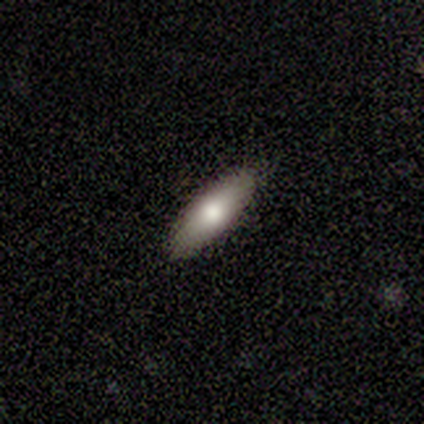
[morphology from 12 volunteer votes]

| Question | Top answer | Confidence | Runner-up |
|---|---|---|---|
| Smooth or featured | smooth | 58% | featured or disk (33%) |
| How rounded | cigar-shaped | 57% | in between (43%) |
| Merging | none | 100% | — |